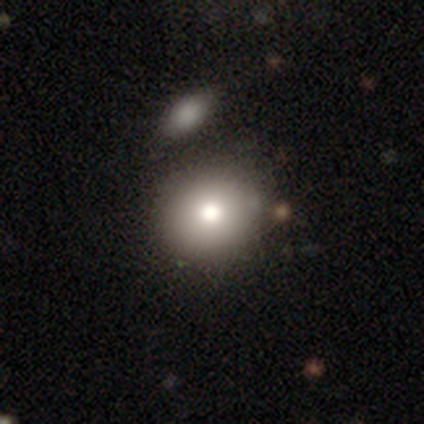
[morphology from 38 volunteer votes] smooth_or_featured: smooth (p=0.76) [alt: featured or disk p=0.16]
how_rounded: round (p=0.83) [alt: in between p=0.17]
merging: none (p=0.37) [alt: merger p=0.29]